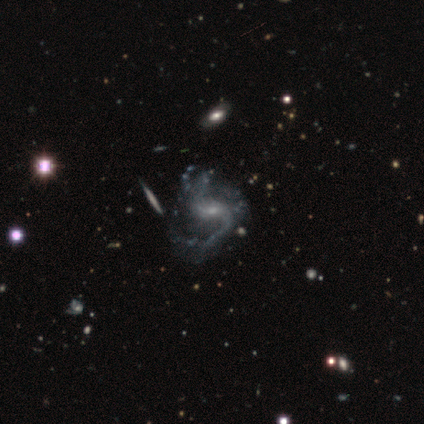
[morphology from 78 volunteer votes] This is clearly a featured or disk galaxy (94%). It is clearly not viewed edge-on (99%). Bar: possibly weak (47%). Spiral arm pattern: clearly yes (97%). Spiral arm count: likely 2 (79%). Spiral winding: likely loose (70%). Central bulge: likely small (72%). Merging: marginally none (31%).